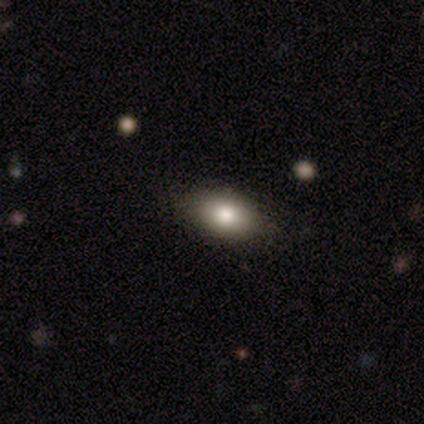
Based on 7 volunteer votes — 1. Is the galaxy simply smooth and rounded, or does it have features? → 100% smooth, 0% featured or disk, 0% star or artifact.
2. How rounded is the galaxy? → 57% in between, 29% round, 14% cigar-shaped.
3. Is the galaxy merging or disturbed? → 100% none, 0% minor disturbance, 0% major disturbance, 0% merger.